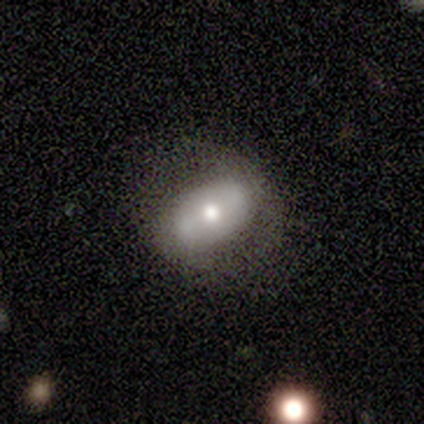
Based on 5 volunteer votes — Smooth or featured? featured or disk (60%)
Edge-on disk? no (100%)
Bar? strong (100%)
Spiral arms? yes (100%)
Spiral winding? loose (67%)
Spiral arm count? 2 (67%)
Bulge size? moderate (100%)
Merging? none (60%)